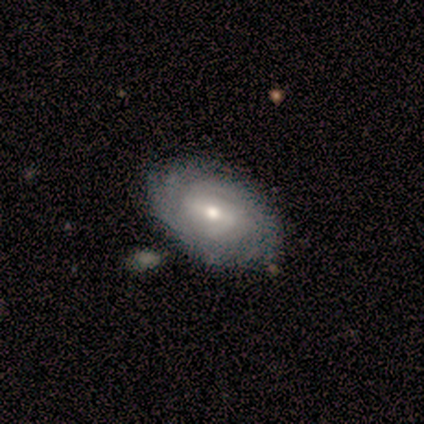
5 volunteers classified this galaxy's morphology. smooth-or-featured: featured or disk: 80% | smooth: 20% | star or artifact: 0%
  disk-edge-on: no: 100% | yes: 0%
    bar: weak: 75% | no: 25% | strong: 0%
    has-spiral-arms: yes: 75% | no: 25%
      spiral-winding: tight: 100% | medium: 0% | loose: 0%
      spiral-arm-count: can't tell: 100% | 1: 0% | 2: 0% | 3: 0% | 4: 0% | more than 4: 0%
    bulge-size: moderate: 75% | small: 25% | dominant: 0% | large: 0% | none: 0%
  merging: none: 100% | minor disturbance: 0% | major disturbance: 0% | merger: 0%